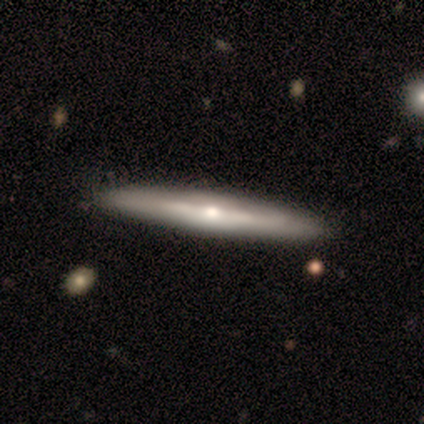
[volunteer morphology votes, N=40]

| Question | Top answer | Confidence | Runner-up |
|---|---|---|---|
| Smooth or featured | featured or disk | 85% | smooth (12%) |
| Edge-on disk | yes | 85% | no (15%) |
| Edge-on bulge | rounded | 90% | none (10%) |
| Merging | none | 69% | merger (5%) |